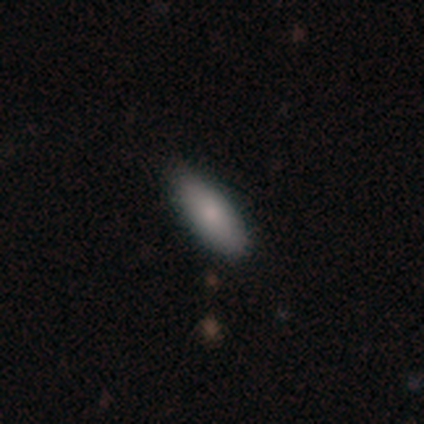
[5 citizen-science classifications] smooth 80%, featured or disk 20%, star or artifact 0%. Down the decision tree: how rounded — in between (75%); merging — none (60%).